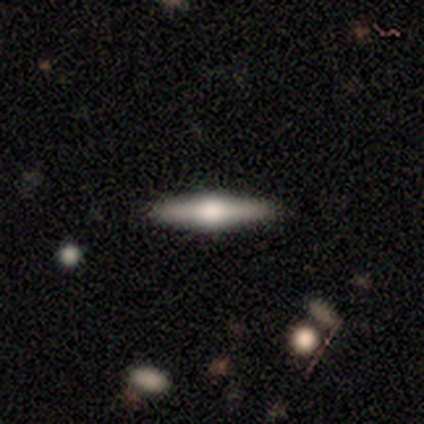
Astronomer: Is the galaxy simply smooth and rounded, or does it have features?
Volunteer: featured or disk — 80%.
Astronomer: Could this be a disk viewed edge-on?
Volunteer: yes — 100%.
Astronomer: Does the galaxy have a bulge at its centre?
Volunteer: rounded — 100%.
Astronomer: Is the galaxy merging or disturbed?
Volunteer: none — 100%.